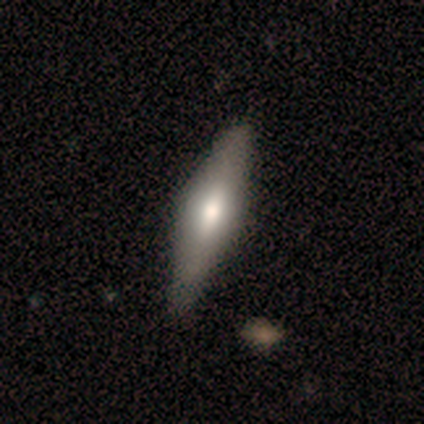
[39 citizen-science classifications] Q: Smooth or featured?
A: featured or disk (64%); runner-up: smooth (36%)
Q: Edge-on disk?
A: yes (88%); runner-up: no (12%)
Q: Edge-on bulge?
A: rounded (73%); runner-up: boxy (14%)
Q: Merging?
A: none (62%); runner-up: minor disturbance (5%)